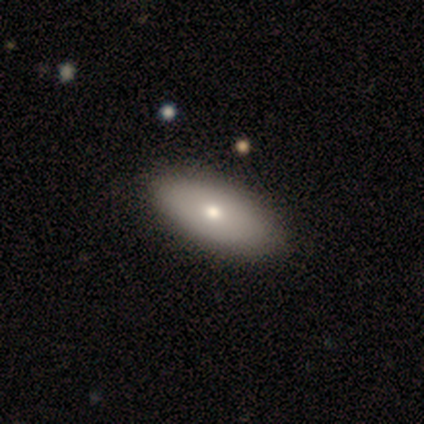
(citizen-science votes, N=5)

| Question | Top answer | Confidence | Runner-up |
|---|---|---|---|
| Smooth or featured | smooth | 100% | — |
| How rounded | in between | 100% | — |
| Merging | none | 100% | — |